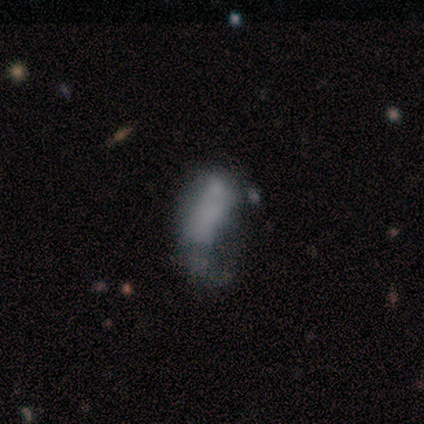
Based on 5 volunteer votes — Overall: smooth (40%, tied with star or artifact). How rounded: in between (100%). Merging: none (33%, tied with minor disturbance and major disturbance).